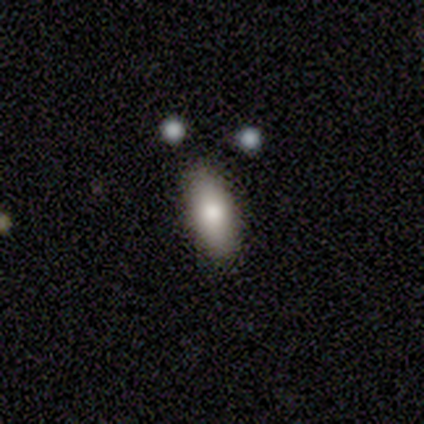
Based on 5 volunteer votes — smooth_or_featured: smooth (p=1.00)
how_rounded: in between (p=1.00)
merging: none (p=1.00)